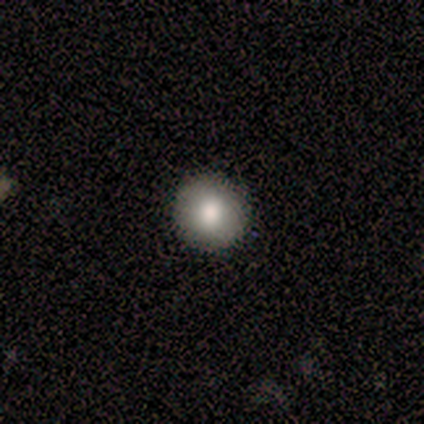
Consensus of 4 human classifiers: Smooth or featured: smooth — 100%
How rounded: round — 100%
Merging: none — 100%